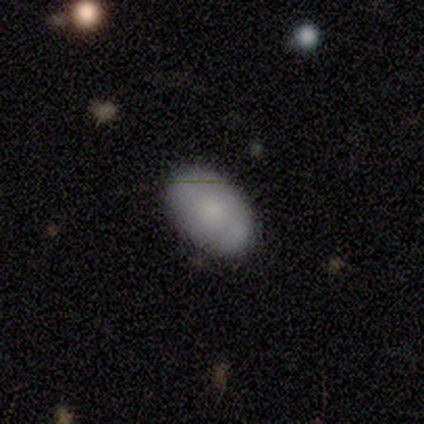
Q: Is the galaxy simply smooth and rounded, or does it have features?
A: smooth — 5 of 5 (100%).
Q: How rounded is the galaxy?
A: in between — 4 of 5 (80%).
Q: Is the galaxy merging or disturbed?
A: none — 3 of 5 (60%).